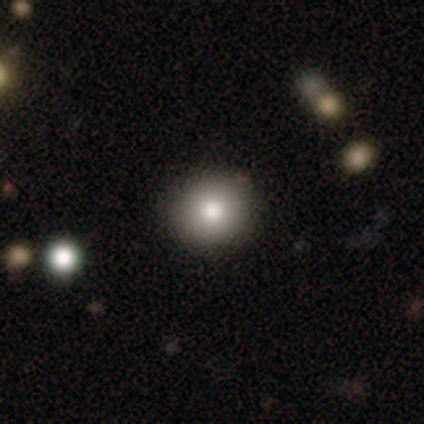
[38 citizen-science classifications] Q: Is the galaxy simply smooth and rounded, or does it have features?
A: smooth — 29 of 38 (76%).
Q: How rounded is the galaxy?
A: round — 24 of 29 (83%).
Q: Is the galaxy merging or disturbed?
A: none — 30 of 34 (88%).